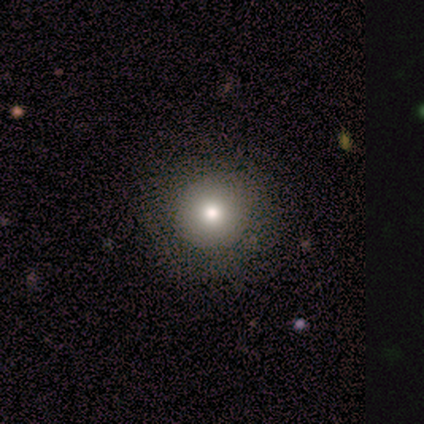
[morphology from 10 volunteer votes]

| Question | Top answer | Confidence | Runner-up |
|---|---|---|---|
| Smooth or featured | smooth | 70% | star or artifact (20%) |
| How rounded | round | 100% | — |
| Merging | none | 88% | minor disturbance (12%) |